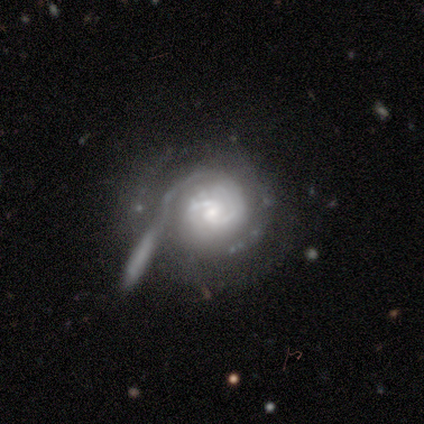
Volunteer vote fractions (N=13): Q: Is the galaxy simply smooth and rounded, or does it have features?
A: featured or disk — 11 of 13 (85%).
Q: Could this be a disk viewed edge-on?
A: no — 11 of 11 (100%).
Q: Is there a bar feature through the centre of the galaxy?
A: weak — 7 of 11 (64%).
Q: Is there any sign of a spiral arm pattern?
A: yes — 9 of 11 (82%).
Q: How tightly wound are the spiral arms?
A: tight — 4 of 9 (44%, tied with medium).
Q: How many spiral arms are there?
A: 2 — 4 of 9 (44%).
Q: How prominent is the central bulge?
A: small — 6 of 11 (55%).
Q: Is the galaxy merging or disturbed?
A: none — 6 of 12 (50%).